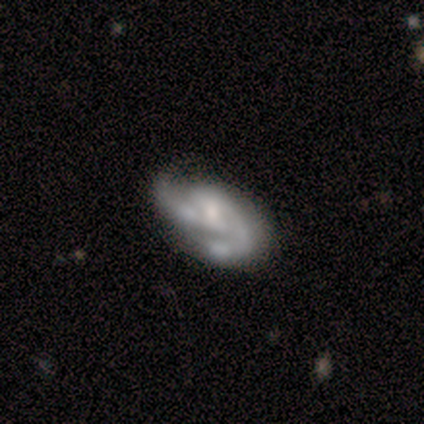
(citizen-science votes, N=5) Q: Smooth or featured?
A: featured or disk (80%); runner-up: smooth (20%)
Q: Edge-on disk?
A: no (100%)
Q: Bar?
A: no (50%); runner-up: strong (25%)
Q: Spiral arms?
A: yes (100%)
Q: Spiral winding?
A: loose (50%); runner-up: tight (25%)
Q: Spiral arm count?
A: 2 (75%); runner-up: 1 (25%)
Q: Bulge size?
A: moderate (50%); tied with: small (50%)
Q: Merging?
A: minor disturbance (60%); runner-up: none (40%)